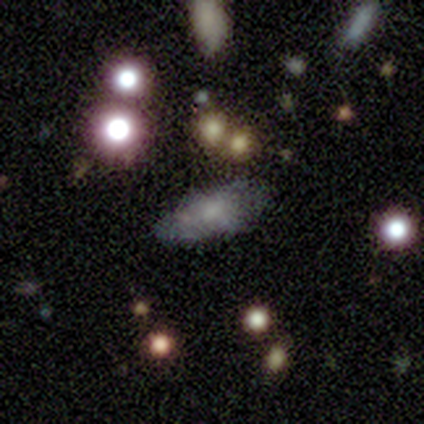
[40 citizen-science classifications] Overall: smooth (68%). How rounded: in between (96%). Merging: none (56%; minor disturbance 33%).